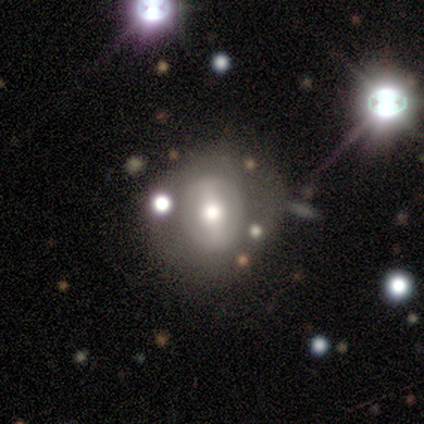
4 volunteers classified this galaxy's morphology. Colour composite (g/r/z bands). It shows a smooth galaxy with no disk features (50%, tied with featured or disk) that is in between round and cigar-shaped (50%, tied with cigar-shaped). Merging: none (50%).